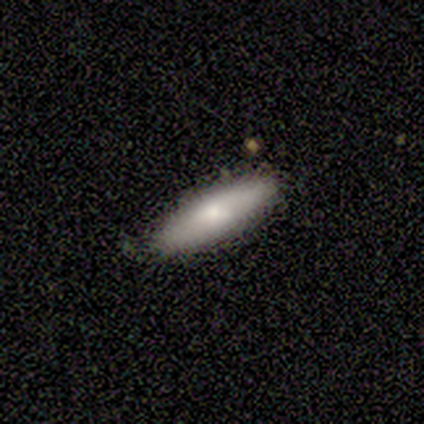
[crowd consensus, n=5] This appears to be a smooth galaxy with no disk features (60%) that is in between round and cigar-shaped (67%). Merging: none (80%).